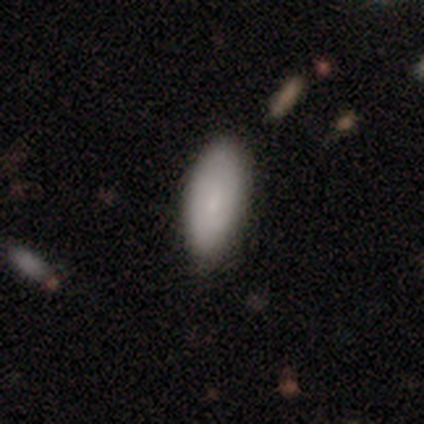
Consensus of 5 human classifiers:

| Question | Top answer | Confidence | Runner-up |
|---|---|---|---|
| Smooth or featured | smooth | 60% | featured or disk (40%) |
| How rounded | in between | 100% | — |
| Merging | none | 100% | — |